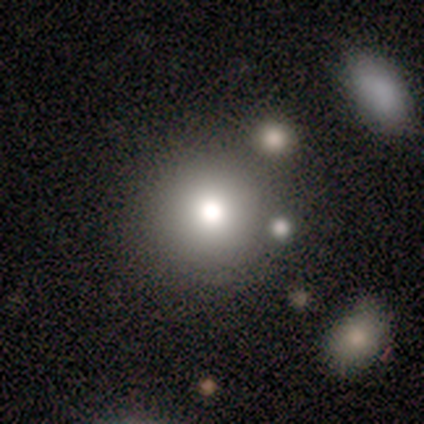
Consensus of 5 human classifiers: Smooth or featured?
  - smooth: 100% *
  - featured or disk: 0%
  - star or artifact: 0%
How rounded?
  - round: 100% *
  - in between: 0%
  - cigar-shaped: 0%
Merging?
  - none: 80% *
  - minor disturbance: 20%
  - major disturbance: 0%
  - merger: 0%